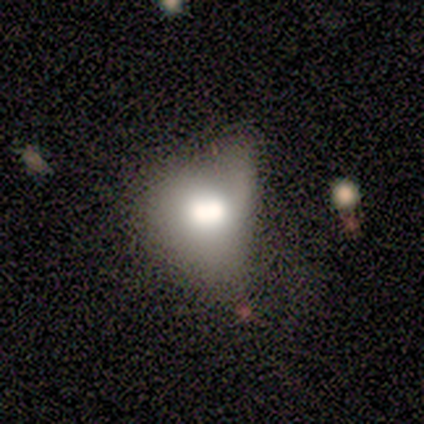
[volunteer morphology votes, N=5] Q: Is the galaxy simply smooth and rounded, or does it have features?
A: smooth — 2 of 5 (40%, tied with featured or disk).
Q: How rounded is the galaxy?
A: round — 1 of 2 (50%, tied with in between).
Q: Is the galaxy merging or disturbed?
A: none — 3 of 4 (75%).